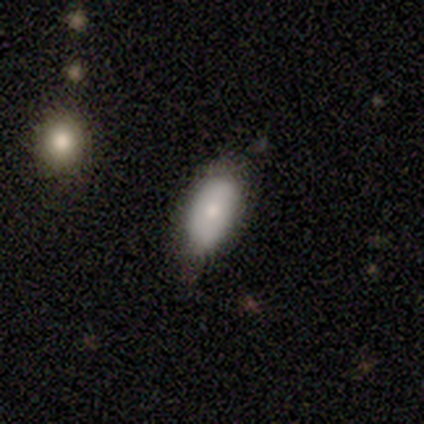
A smooth galaxy with no disk features (80%) that is in between round and cigar-shaped (100%). Merging: none (75%).